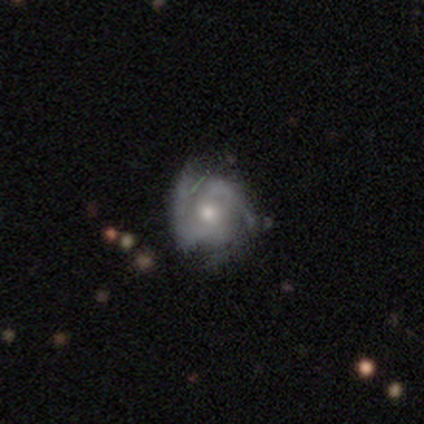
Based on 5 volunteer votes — smooth_or_featured: featured or disk (p=0.80) [alt: star or artifact p=0.20]
disk_edge_on: no (p=1.00)
bar: no (p=0.75) [alt: weak p=0.25]
has_spiral_arms: yes (p=1.00)
spiral_winding: tight (p=0.50) [alt: medium p=0.25]
spiral_arm_count: can't tell (p=0.50) [alt: 2 p=0.25]
bulge_size: moderate (p=0.50) [tied with: small p=0.50]
merging: none (p=0.50) [tied with: minor disturbance p=0.50]